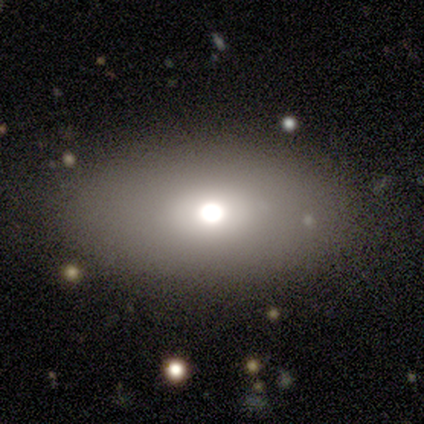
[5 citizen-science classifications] Smooth or featured? smooth (60%)
How rounded? in between (100%)
Merging? none (75%)